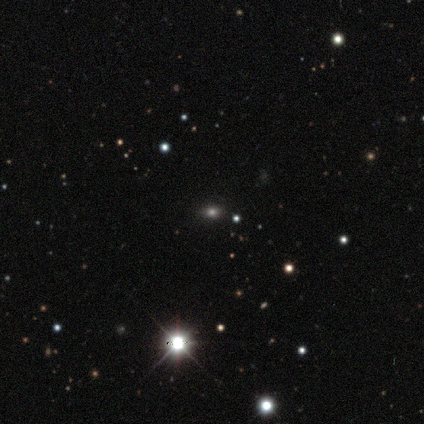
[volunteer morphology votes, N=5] Q: Smooth or featured?
A: star or artifact (60%); runner-up: smooth (20%)